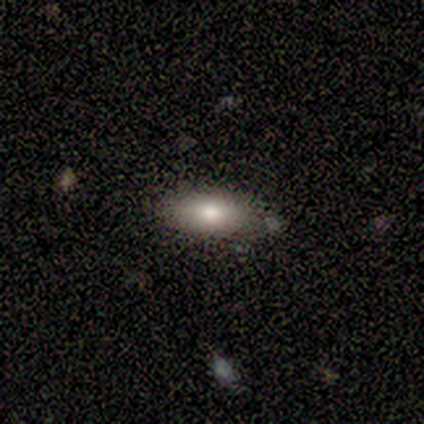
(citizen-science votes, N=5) Q: Smooth or featured?
A: smooth (80%); runner-up: featured or disk (20%)
Q: How rounded?
A: in between (75%); runner-up: cigar-shaped (25%)
Q: Merging?
A: none (80%); runner-up: minor disturbance (20%)